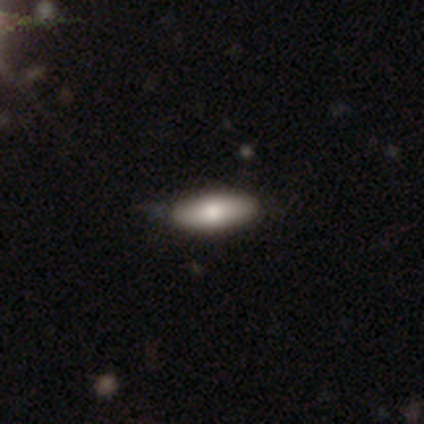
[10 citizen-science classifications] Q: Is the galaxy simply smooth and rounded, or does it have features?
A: smooth — 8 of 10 (80%).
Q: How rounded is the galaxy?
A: in between — 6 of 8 (75%).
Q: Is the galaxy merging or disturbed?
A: none — 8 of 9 (89%).